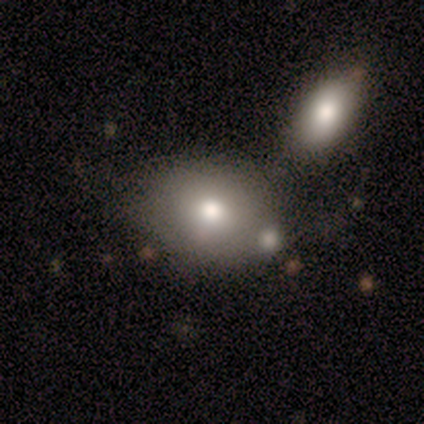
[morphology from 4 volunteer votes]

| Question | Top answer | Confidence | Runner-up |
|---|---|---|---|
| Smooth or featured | smooth | 75% | featured or disk (25%) |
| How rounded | round | 67% | in between (33%) |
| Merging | none | 50% | minor disturbance (25%) |